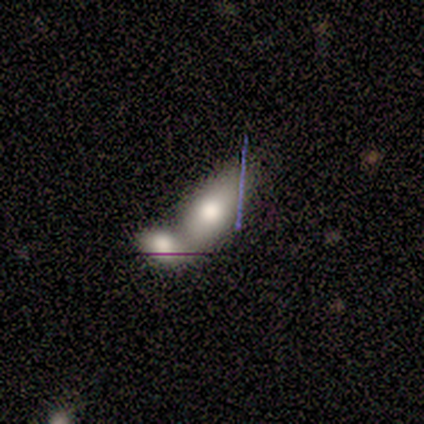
Smooth or featured?
  - smooth: 80% *
  - featured or disk: 20%
  - star or artifact: 0%
How rounded?
  - in between: 100% *
  - round: 0%
  - cigar-shaped: 0%
Merging?
  - merger: 100% *
  - none: 0%
  - minor disturbance: 0%
  - major disturbance: 0%